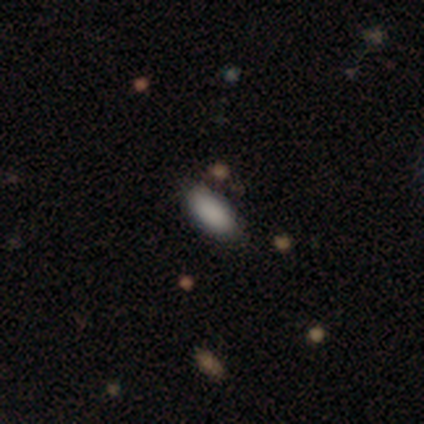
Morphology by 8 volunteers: Smooth or featured: smooth — 88% (star or artifact — 12%)
How rounded: in between — 86% (cigar-shaped — 14%)
Merging: none — 86% (major disturbance — 14%)